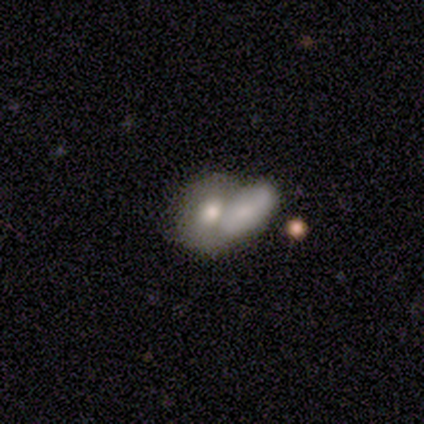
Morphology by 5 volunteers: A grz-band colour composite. It shows a smooth galaxy with no disk features (100%) that is in between round and cigar-shaped (80%). Merging: none (40%, tied with merger).